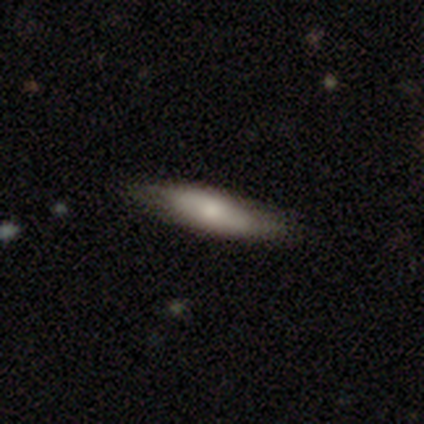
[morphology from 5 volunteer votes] Smooth or featured? 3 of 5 (60%) said smooth. How rounded? 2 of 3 (67%) said cigar-shaped. Merging? 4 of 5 (80%) said none.